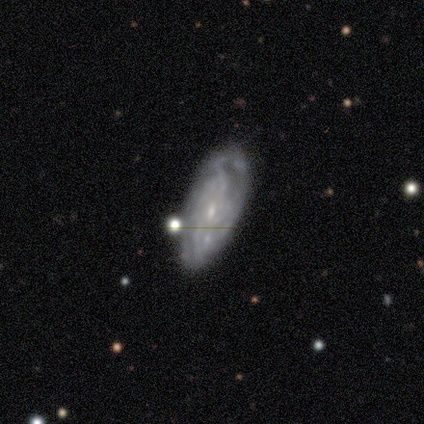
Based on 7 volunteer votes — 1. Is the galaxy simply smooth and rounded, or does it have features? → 86% featured or disk, 14% smooth, 0% star or artifact.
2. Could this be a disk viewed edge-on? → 100% no, 0% yes.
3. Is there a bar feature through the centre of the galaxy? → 50% weak, 33% no, 17% strong.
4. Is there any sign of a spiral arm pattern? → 67% yes, 33% no.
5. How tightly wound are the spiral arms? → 75% medium, 25% tight, 0% loose.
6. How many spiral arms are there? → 50% 2 (tied), 50% can't tell (tied), 0% 1, 0% 3, 0% 4, 0% more than 4.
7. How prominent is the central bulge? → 100% small, 0% dominant, 0% large, 0% moderate, 0% none.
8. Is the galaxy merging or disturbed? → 57% none, 29% minor disturbance, 14% major disturbance, 0% merger.